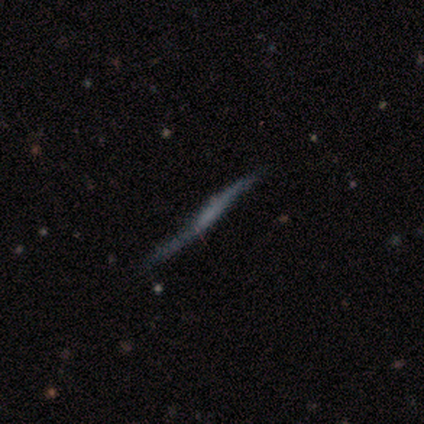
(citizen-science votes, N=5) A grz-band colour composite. It shows a featured or disk galaxy (80%) viewed edge-on (75%) with no central bulge (100%). Merging: none (80%).